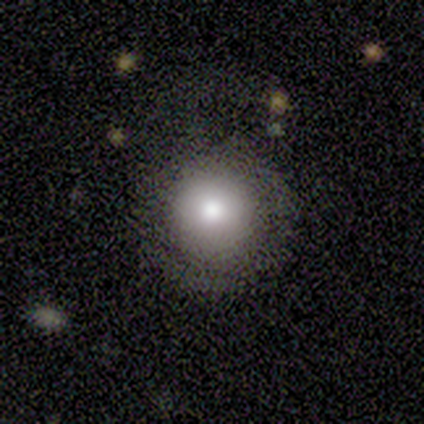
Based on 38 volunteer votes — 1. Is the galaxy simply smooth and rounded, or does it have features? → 71% smooth, 21% star or artifact, 8% featured or disk.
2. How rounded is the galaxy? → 93% round, 7% in between, 0% cigar-shaped.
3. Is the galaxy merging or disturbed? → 77% none, 13% major disturbance, 10% minor disturbance, 0% merger.